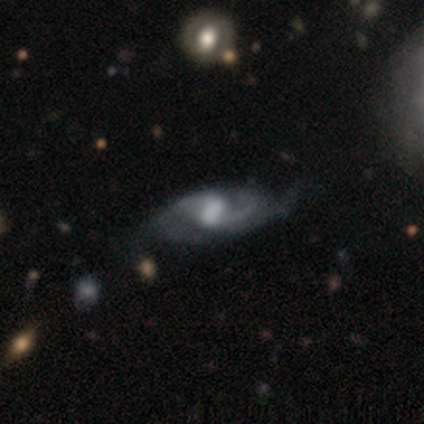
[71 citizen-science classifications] Smooth or featured: featured or disk — 86% (smooth — 7%)
Edge-on disk: no — 95% (yes — 5%)
Bar: weak — 43% (strong — 41%)
Spiral arms: yes — 98% (no — 2%)
Spiral winding: medium — 54% (loose — 39%)
Spiral arm count: 2 — 84% (can't tell — 9%)
Bulge size: moderate — 31% (large — 28%)
Merging: none — 56% (minor disturbance — 20%)